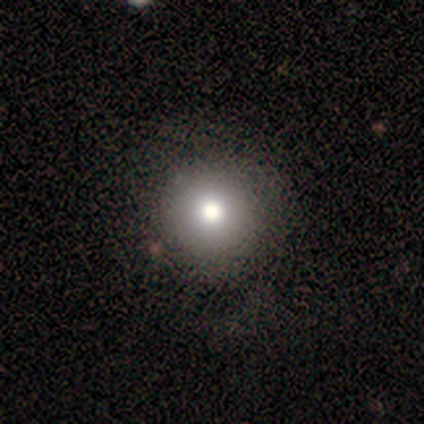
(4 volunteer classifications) Volunteers were most divided on "smooth or featured": smooth: 75%, star or artifact: 25%, featured or disk: 0%. More confident: how rounded — round (100%); merging — none (100%).